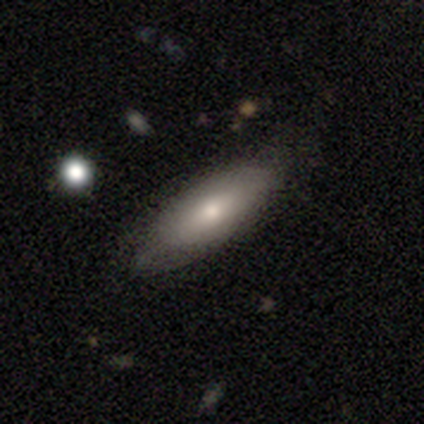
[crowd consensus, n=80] smooth-or-featured: smooth: 80% | featured or disk: 16% | star or artifact: 4%
  how-rounded: in between: 83% | cigar-shaped: 17% | round: 0%
  merging: none: 44% | minor disturbance: 10% | merger: 4% | major disturbance: 0%